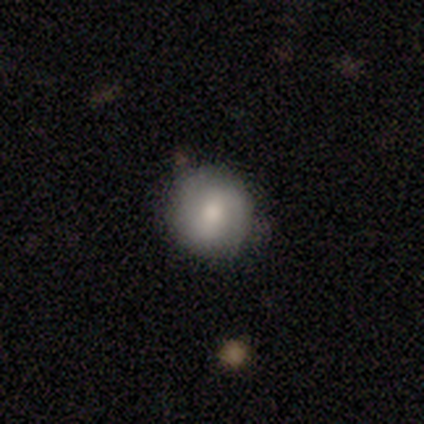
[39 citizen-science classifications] smooth 59%, featured or disk 31%, star or artifact 10%. Down the decision tree: how rounded — round (91%); merging — none (83%).